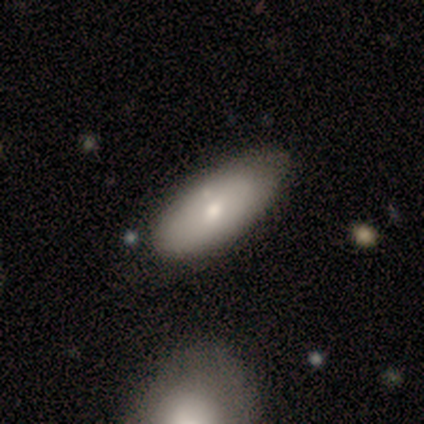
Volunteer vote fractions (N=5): Smooth or featured? featured or disk (60%)
Edge-on disk? no (100%)
Bar? no (100%)
Spiral arms? no (100%)
Bulge size? small (67%)
Merging? none (40%, tied with minor disturbance)